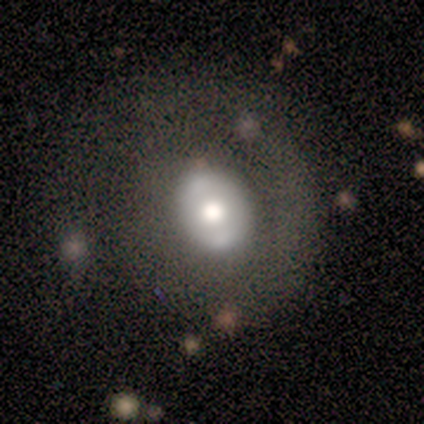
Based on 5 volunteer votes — Smooth or featured? 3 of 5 (60%) said featured or disk. Edge-on disk? 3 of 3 (100%) said no. Bar? 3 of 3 (100%) said no. Spiral arms? 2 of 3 (67%) said no. Bulge size? 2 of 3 (67%) said moderate. Merging? 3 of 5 (60%) said none.